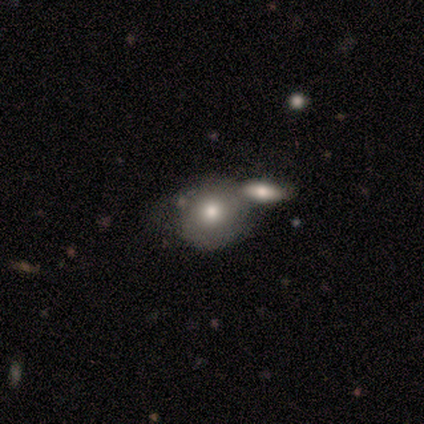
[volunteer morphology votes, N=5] Smooth or featured? smooth (80%)
How rounded? round (100%)
Merging? merger (80%)